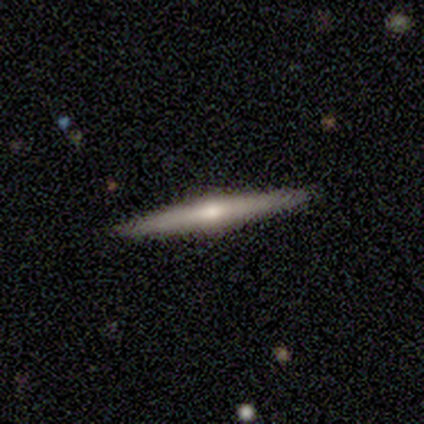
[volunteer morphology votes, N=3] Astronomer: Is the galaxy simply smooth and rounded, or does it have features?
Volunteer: featured or disk — 67%.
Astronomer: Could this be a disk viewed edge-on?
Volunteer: yes — 100%.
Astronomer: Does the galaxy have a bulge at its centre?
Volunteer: boxy — 50%, tied with rounded at 50%.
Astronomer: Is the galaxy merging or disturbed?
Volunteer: none — 100%.